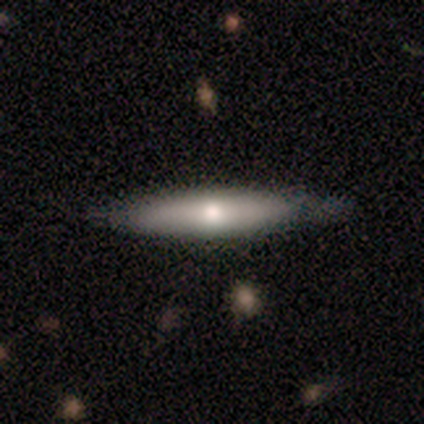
Smooth or featured?
  - smooth: 100% *
  - featured or disk: 0%
  - star or artifact: 0%
How rounded?
  - cigar-shaped: 80% *
  - in between: 20%
  - round: 0%
Merging?
  - none: 80% *
  - major disturbance: 20%
  - minor disturbance: 0%
  - merger: 0%